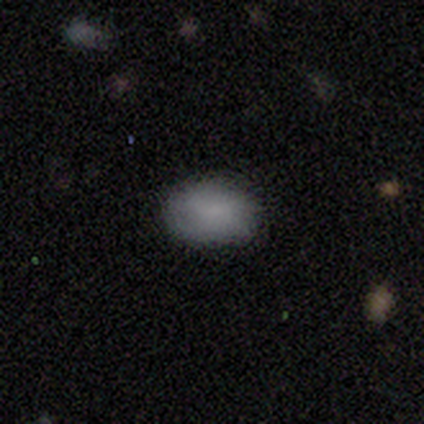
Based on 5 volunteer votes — Morphology: type=smooth (100%); roundness=in between (80%); merging=none (80%).